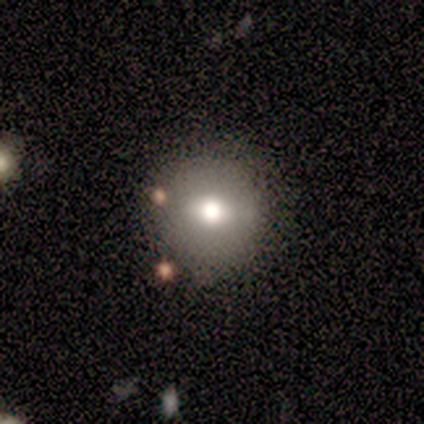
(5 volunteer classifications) Morphology: type=smooth (80%); roundness=round (100%); merging=none (100%).